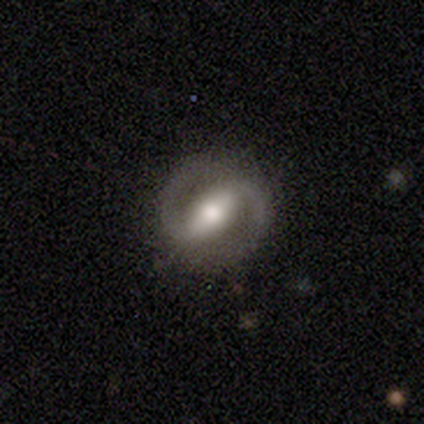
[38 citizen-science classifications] featured or disk 82%, star or artifact 11%, smooth 8%. Down the decision tree: edge-on disk — no (97%); bar — strong (63%); spiral arms — yes (90%); spiral arm count — 2 (96%); spiral winding — medium (48%); bulge size — moderate (73%); merging — none (82%).